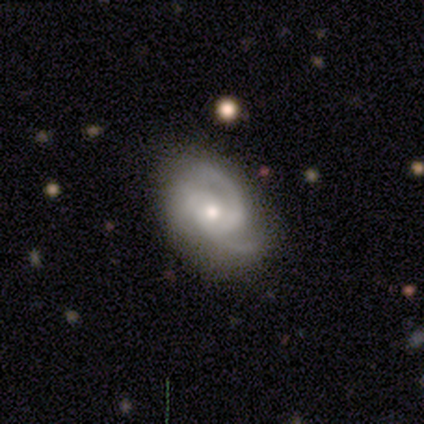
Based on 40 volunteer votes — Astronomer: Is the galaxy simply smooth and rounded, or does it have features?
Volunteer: featured or disk — 90%.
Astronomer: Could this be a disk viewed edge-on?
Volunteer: no — 97%.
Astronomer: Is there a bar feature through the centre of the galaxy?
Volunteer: no — 74%.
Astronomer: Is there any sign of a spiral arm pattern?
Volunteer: yes — 100%.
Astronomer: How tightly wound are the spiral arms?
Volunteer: tight — 46% (runner-up: medium, 43%).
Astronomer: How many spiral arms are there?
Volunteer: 3 — 60%.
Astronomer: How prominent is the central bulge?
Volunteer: moderate — 49% (runner-up: small, 46%).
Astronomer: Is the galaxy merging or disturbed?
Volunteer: none — 51%.